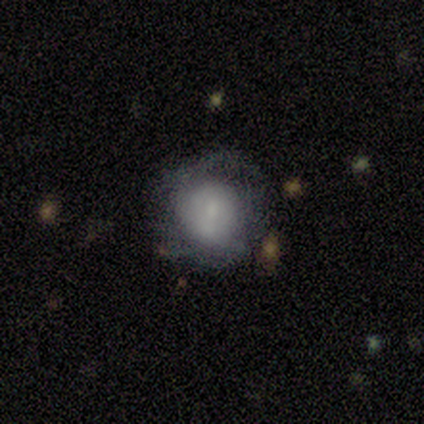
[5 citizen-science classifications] Morphology: type=smooth (60%); roundness=round (67%); merging=major disturbance (60%).